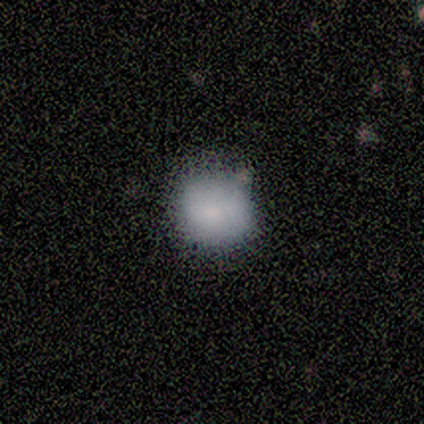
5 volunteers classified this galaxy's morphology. Smooth or featured? smooth (100%)
How rounded? round (100%)
Merging? none (100%)